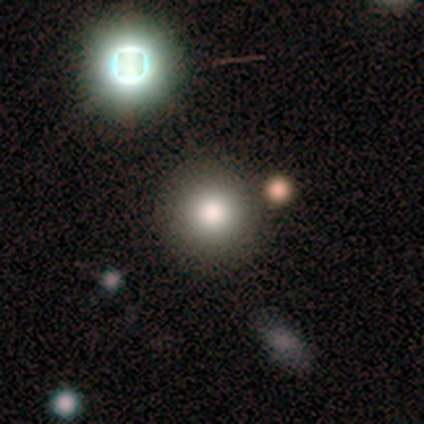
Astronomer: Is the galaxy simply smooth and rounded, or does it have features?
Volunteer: smooth — 67%.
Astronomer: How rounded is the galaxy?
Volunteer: round — 100%.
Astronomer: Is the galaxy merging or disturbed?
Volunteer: none — 100%.